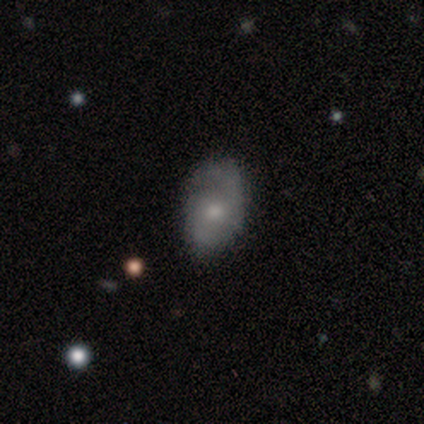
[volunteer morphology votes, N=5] smooth_or_featured: featured or disk (p=0.80) [alt: smooth p=0.20]
disk_edge_on: no (p=1.00)
bar: weak (p=0.50) [alt: strong p=0.25]
has_spiral_arms: yes (p=0.75) [alt: no p=0.25]
spiral_winding: tight (p=0.33) [tied with: medium p=0.33, loose p=0.33]
spiral_arm_count: 2 (p=0.67) [alt: 3 p=0.33]
bulge_size: moderate (p=0.75) [alt: small p=0.25]
merging: none (p=0.60) [alt: minor disturbance p=0.20]